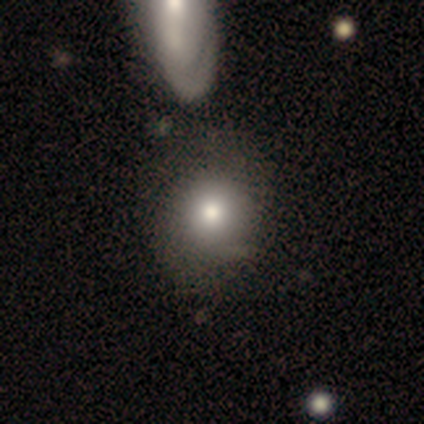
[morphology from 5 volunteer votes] smooth 80%, star or artifact 20%, featured or disk 0%. Down the decision tree: how rounded — round (50%, tied with in between); merging — none (25%, tied with minor disturbance, major disturbance and merger).